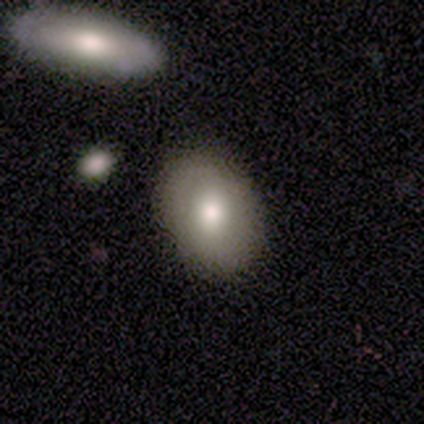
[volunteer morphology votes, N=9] Overall: smooth (100%). How rounded: in between (89%). Merging: none (56%; minor disturbance 33%).